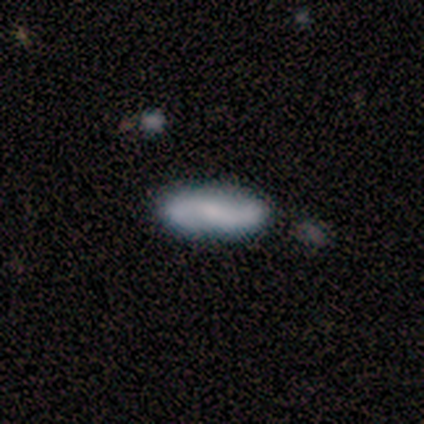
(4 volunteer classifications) Smooth or featured: featured or disk — 75% (smooth — 25%)
Edge-on disk: no — 67% (yes — 33%)
Bar: no — 100%
Spiral arms: yes — 50% (tied with no — 50%)
Spiral winding: loose — 100%
Spiral arm count: can't tell — 100%
Bulge size: none — 100%
Merging: none — 75% (minor disturbance — 25%)